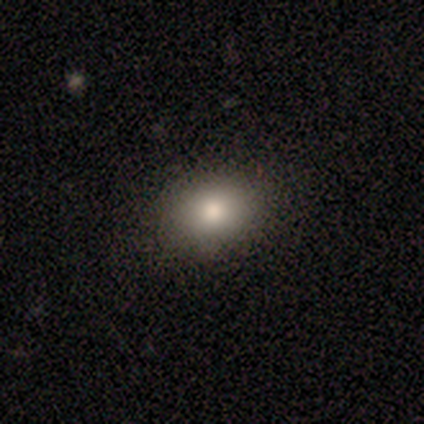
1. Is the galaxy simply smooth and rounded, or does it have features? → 82% smooth, 10% featured or disk, 8% star or artifact.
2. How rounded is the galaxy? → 61% in between, 39% round, 0% cigar-shaped.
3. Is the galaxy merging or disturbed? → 89% none, 8% minor disturbance, 3% major disturbance, 0% merger.